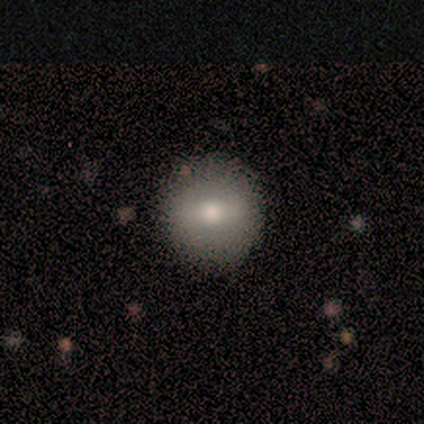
A smooth galaxy with no disk features (71%) that is round (93%).

Vote fractions:
- Smooth or featured? smooth: 71% / featured or disk: 16% / star or artifact: 13%
- How rounded? round: 93% / in between: 7% / cigar-shaped: 0%
- Merging? none: 91% / minor disturbance: 6% / merger: 3% / major disturbance: 0%